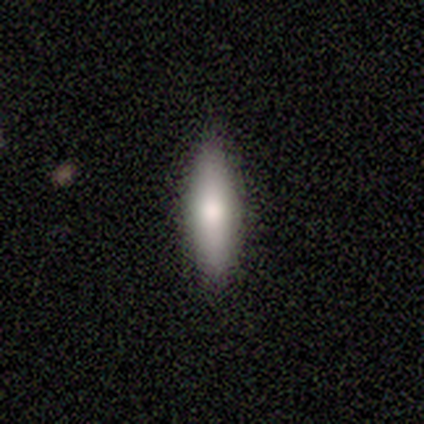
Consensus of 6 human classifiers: Morphology: type=smooth (100%); roundness=cigar-shaped (67%); merging=none (83%).